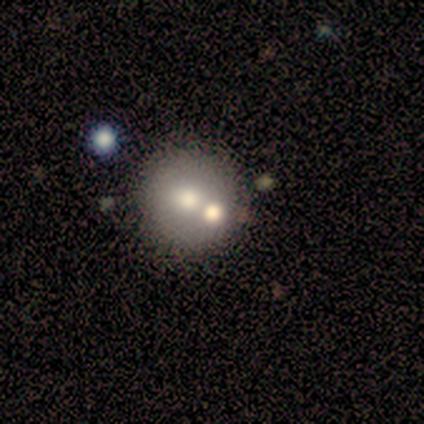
smooth 67%, featured or disk 22%, star or artifact 11%. Down the decision tree: how rounded — round (100%); merging — none (75%).